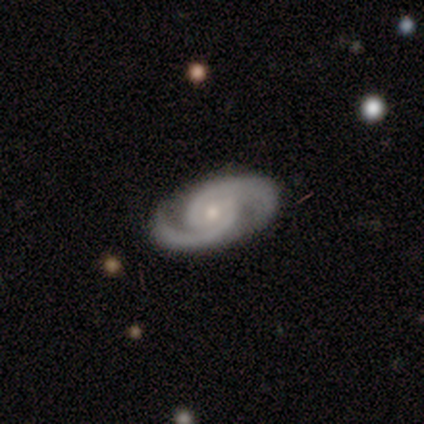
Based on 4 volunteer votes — Morphology: type=featured or disk (100%); edge-on=no (100%); bar=no (75%); spiral arms=yes (100%); winding=medium (75%); arm count=2 (100%); bulge=moderate (50%, tied with small); merging=none (100%).